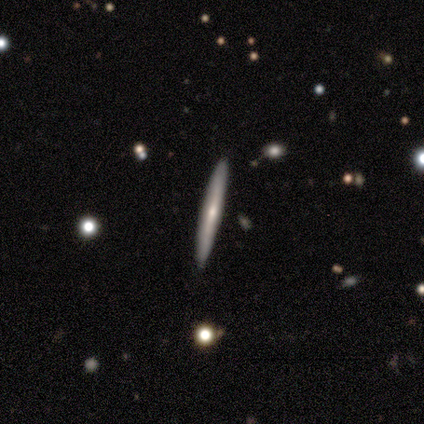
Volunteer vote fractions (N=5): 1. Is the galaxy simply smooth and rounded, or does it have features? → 60% smooth, 40% featured or disk, 0% star or artifact.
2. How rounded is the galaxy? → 100% cigar-shaped, 0% round, 0% in between.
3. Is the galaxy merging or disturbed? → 100% none, 0% minor disturbance, 0% major disturbance, 0% merger.